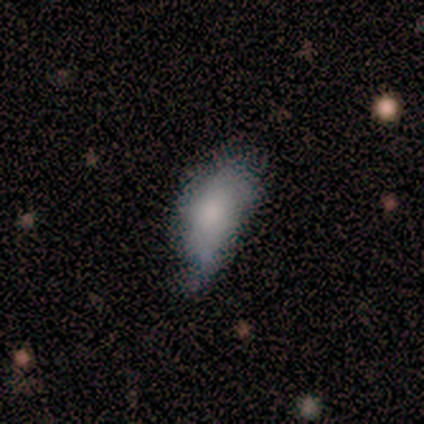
Volunteers were most divided on "merging": minor disturbance: 75%, none: 25%, major disturbance: 0%, merger: 0%. More confident: how rounded — in between (100%); smooth or featured — smooth (80%).